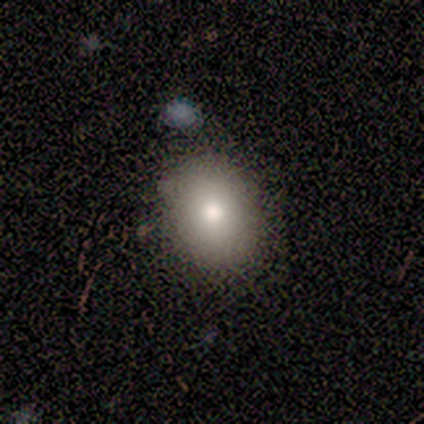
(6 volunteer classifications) This is likely a smooth galaxy (67%). How rounded: likely in between (75%). Merging: likely none (60%).